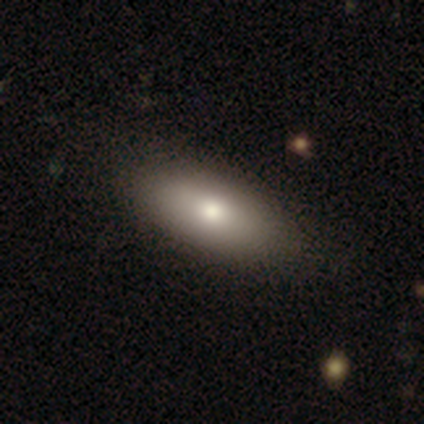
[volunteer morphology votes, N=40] Smooth or featured? 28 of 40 (70%) said smooth. How rounded? 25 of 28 (89%) said in between. Merging? 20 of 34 (59%) said none.